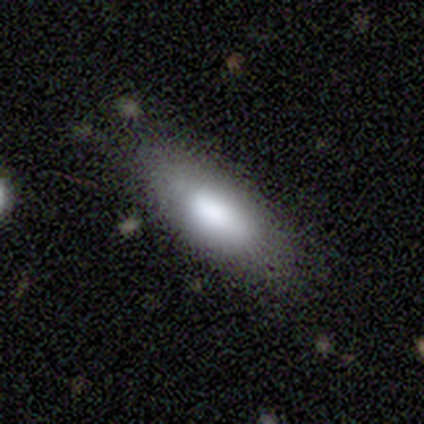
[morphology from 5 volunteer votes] Q: Smooth or featured?
A: smooth (100%)
Q: How rounded?
A: in between (80%); runner-up: cigar-shaped (20%)
Q: Merging?
A: none (100%)